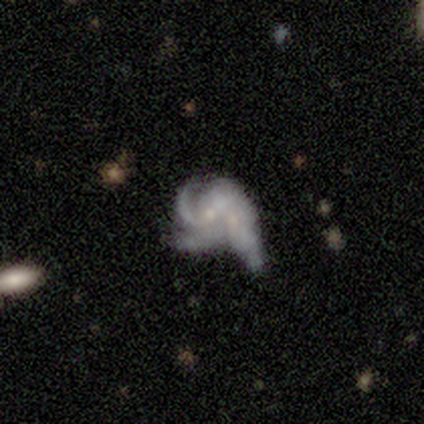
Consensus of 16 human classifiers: Smooth or featured? featured or disk (88%)
Edge-on disk? no (93%)
Bar? no (62%)
Spiral arms? yes (69%)
Spiral winding? tight (44%)
Spiral arm count? can't tell (56%)
Bulge size? small (54%)
Merging? merger (56%)